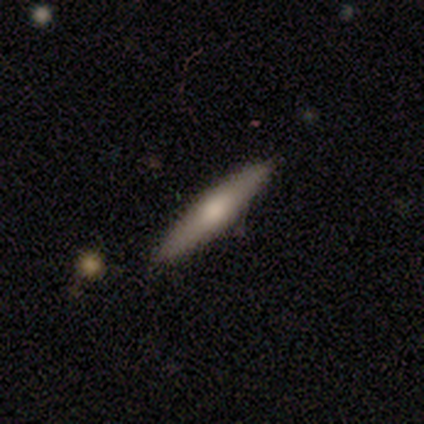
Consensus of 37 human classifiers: Volunteers were most divided on "smooth or featured": smooth: 62%, featured or disk: 32%, star or artifact: 5%. More confident: merging — none (89%); how rounded — cigar-shaped (87%).